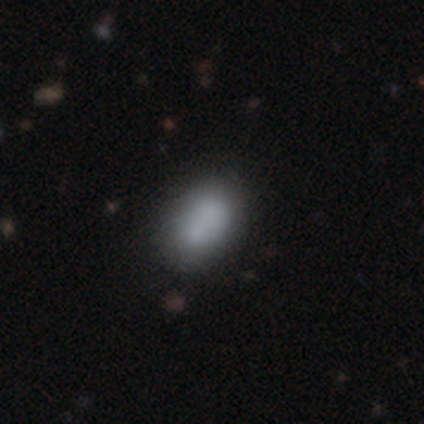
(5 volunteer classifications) A smooth galaxy with no disk features (60%) that is in between round and cigar-shaped (100%).

Vote fractions:
- Smooth or featured? smooth: 60% / featured or disk: 20% / star or artifact: 20%
- How rounded? in between: 100% / round: 0% / cigar-shaped: 0%
- Merging? none: 75% / minor disturbance: 25% / major disturbance: 0% / merger: 0%